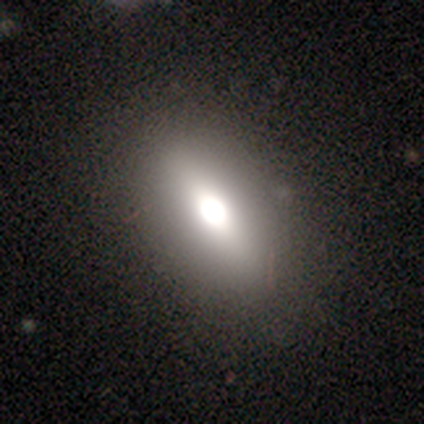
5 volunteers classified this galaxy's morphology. type=smooth (80%); roundness=in between (100%); merging=none (80%).